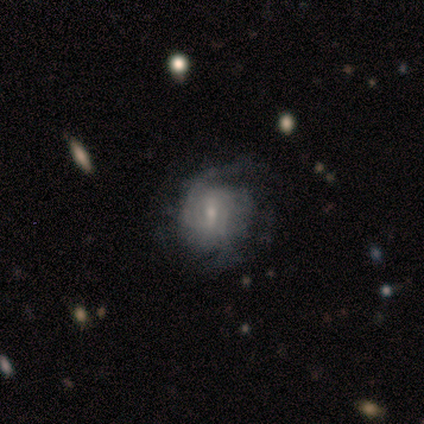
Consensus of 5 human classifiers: Smooth or featured? featured or disk (100%)
Edge-on disk? no (100%)
Bar? no (80%)
Spiral arms? yes (100%)
Spiral winding? tight (60%)
Spiral arm count? can't tell (60%)
Bulge size? small (100%)
Merging? none (100%)